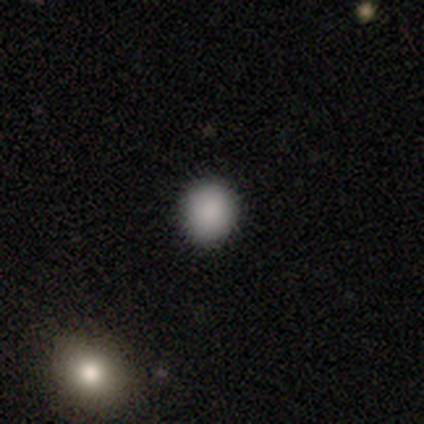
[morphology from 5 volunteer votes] Q: Smooth or featured?
A: smooth (100%)
Q: How rounded?
A: round (80%); runner-up: in between (20%)
Q: Merging?
A: none (100%)